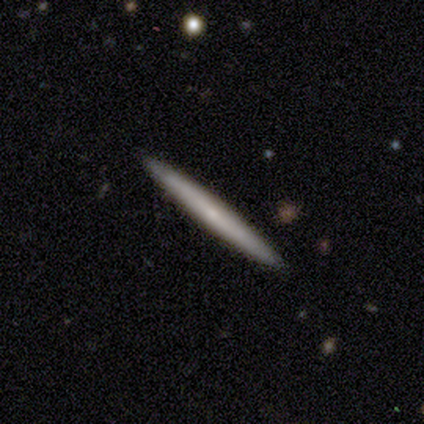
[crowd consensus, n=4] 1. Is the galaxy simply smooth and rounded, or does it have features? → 75% featured or disk, 25% smooth, 0% star or artifact.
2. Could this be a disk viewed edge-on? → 100% yes, 0% no.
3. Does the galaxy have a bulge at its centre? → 100% none, 0% boxy, 0% rounded.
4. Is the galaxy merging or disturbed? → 50% none (tied), 50% minor disturbance (tied), 0% major disturbance, 0% merger.